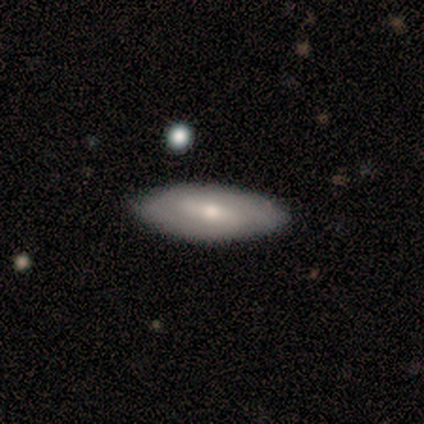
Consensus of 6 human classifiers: Smooth or featured: featured or disk — 67% (smooth — 33%)
Edge-on disk: no — 100%
Bar: weak — 50% (strong — 25%)
Spiral arms: yes — 100%
Spiral winding: tight — 75% (medium — 25%)
Spiral arm count: can't tell — 75% (2 — 25%)
Bulge size: moderate — 100%
Merging: none — 100%